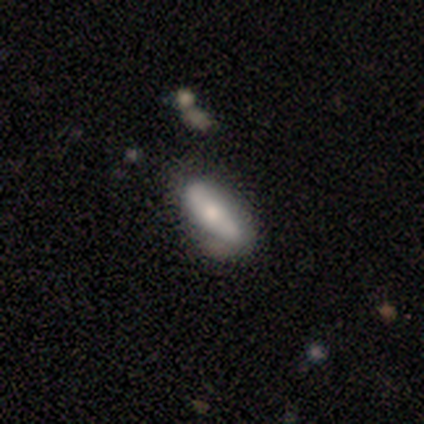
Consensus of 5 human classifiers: Smooth or featured: smooth — 80% (featured or disk — 20%)
How rounded: in between — 100%
Merging: none — 80% (major disturbance — 20%)